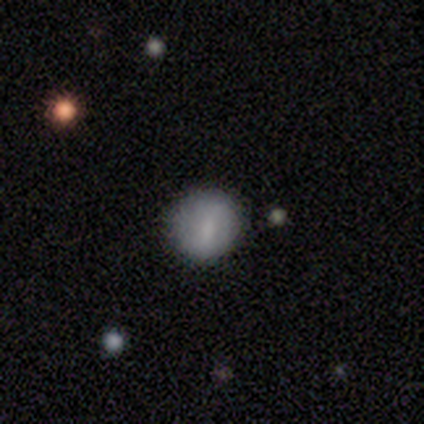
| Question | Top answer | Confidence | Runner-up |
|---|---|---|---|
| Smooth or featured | smooth | 80% | featured or disk (20%) |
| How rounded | round | 75% | in between (25%) |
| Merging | none | 100% | — |